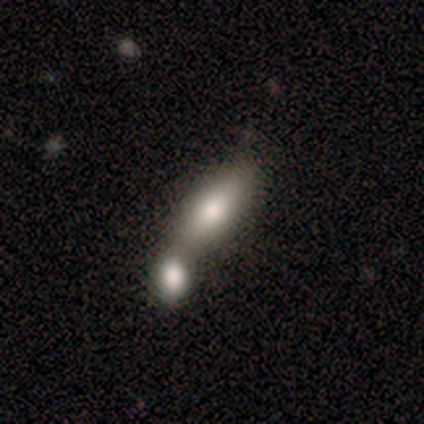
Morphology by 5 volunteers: smooth 100%, featured or disk 0%, star or artifact 0%. Down the decision tree: how rounded — cigar-shaped (60%); merging — merger (80%).